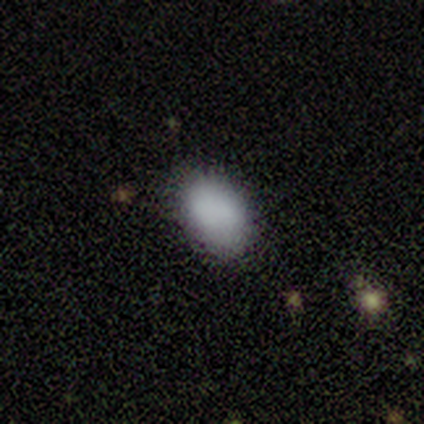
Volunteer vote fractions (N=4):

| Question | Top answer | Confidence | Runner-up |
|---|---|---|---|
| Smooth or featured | smooth | 100% | — |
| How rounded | in between | 100% | — |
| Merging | none | 75% | merger (25%) |